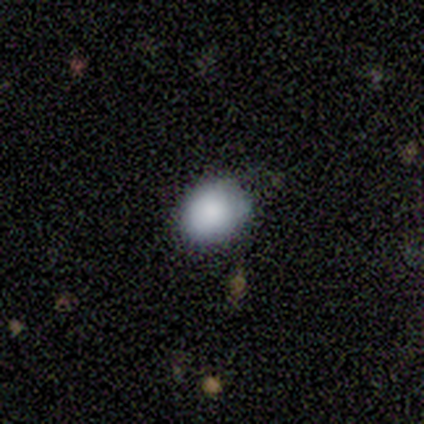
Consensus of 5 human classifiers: Smooth or featured: smooth — 60% (featured or disk — 20%)
How rounded: round — 67% (in between — 33%)
Merging: none — 75% (minor disturbance — 25%)